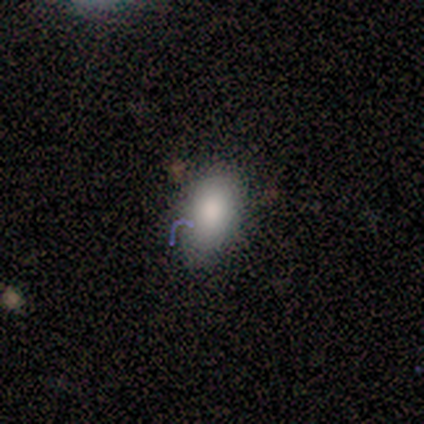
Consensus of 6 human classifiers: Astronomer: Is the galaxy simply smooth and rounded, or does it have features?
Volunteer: smooth — 67%.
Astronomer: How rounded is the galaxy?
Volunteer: in between — 75%.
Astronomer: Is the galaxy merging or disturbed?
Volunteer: none — 100%.